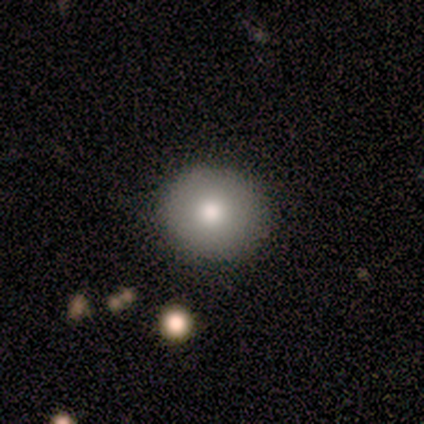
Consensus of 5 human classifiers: Smooth or featured?
  - smooth: 100% *
  - featured or disk: 0%
  - star or artifact: 0%
How rounded?
  - round: 80% *
  - in between: 20%
  - cigar-shaped: 0%
Merging?
  - none: 80% *
  - minor disturbance: 20%
  - major disturbance: 0%
  - merger: 0%